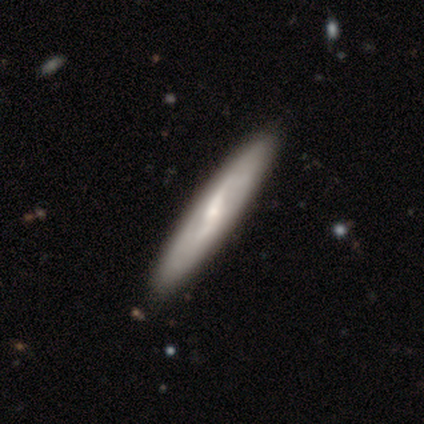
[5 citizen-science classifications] Smooth or featured?
  - featured or disk: 80% *
  - smooth: 20%
  - star or artifact: 0%
Edge-on disk?
  - no: 75% *
  - yes: 25%
Bar?
  - strong: 67% *
  - weak: 33%
  - no: 0%
Spiral arms?
  - yes: 100% *
  - no: 0%
Spiral winding?
  - loose: 67% *
  - medium: 33%
  - tight: 0%
Spiral arm count?
  - 2: 67% *
  - can't tell: 33%
  - 1: 0%
  - 3: 0%
  - 4: 0%
  - more than 4: 0%
Bulge size?
  - small: 67% *
  - moderate: 33%
  - dominant: 0%
  - large: 0%
  - none: 0%
Merging?
  - none: 100% *
  - minor disturbance: 0%
  - major disturbance: 0%
  - merger: 0%